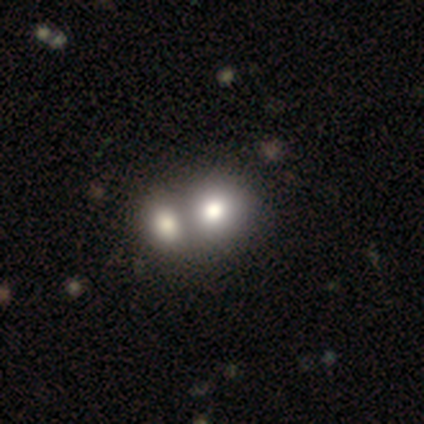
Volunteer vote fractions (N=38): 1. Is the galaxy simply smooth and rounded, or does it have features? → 61% smooth, 37% featured or disk, 3% star or artifact.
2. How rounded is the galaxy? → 70% round, 30% in between, 0% cigar-shaped.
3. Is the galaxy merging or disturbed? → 89% merger, 5% none, 0% minor disturbance, 0% major disturbance.